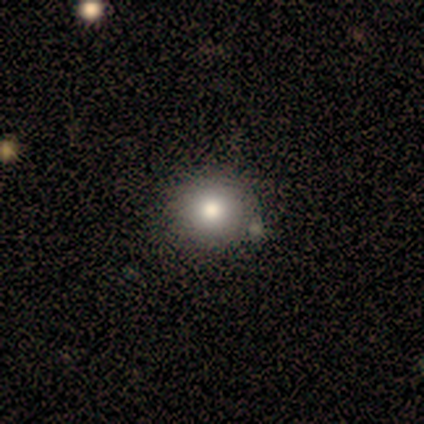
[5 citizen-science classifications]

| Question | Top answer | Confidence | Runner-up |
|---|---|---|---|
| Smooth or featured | smooth | 80% | star or artifact (20%) |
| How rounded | round | 75% | in between (25%) |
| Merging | none | 75% | minor disturbance (25%) |